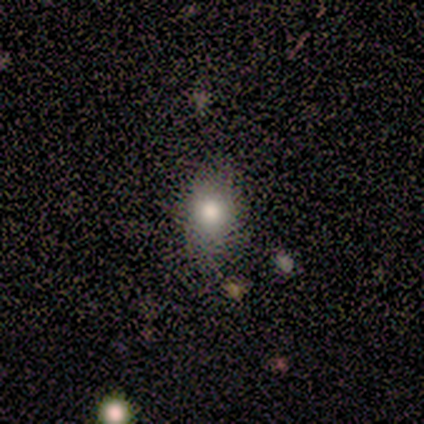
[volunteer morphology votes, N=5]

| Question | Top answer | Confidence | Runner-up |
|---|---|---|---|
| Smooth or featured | smooth | 100% | — |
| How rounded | in between | 80% | cigar-shaped (20%) |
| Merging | none | 80% | minor disturbance (20%) |